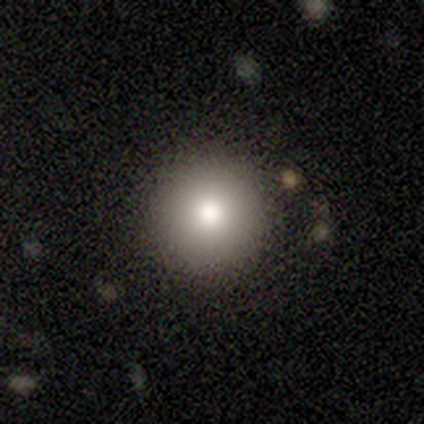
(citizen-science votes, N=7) Smooth or featured: smooth — 86% (star or artifact — 14%)
How rounded: round — 83% (cigar-shaped — 17%)
Merging: none — 100%